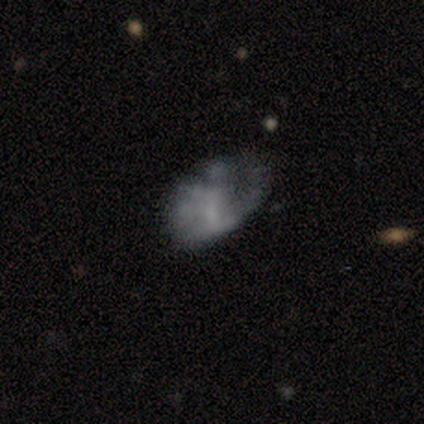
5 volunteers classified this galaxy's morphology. smooth 60%, featured or disk 20%, star or artifact 20%. Down the decision tree: how rounded — in between (67%); merging — minor disturbance (50%).